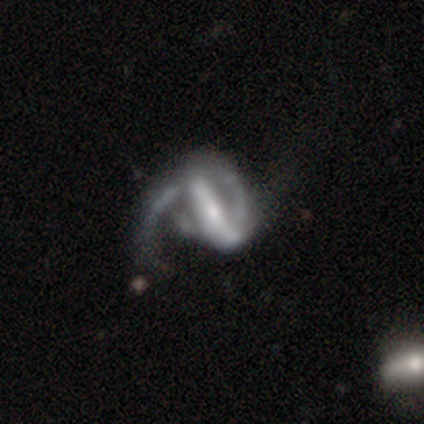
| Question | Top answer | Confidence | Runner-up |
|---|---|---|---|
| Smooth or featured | featured or disk | 100% | — |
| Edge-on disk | no | 100% | — |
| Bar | strong | 80% | no (20%) |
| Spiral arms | yes | 80% | no (20%) |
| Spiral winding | medium | 50% | tight (25%) |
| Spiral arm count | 1 | 50% | tied: 2 (50%) |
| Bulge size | small | 80% | moderate (20%) |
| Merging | major disturbance | 100% | — |